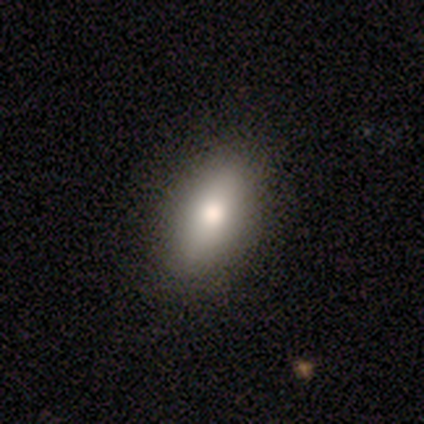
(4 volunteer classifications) Q: Smooth or featured?
A: smooth (100%)
Q: How rounded?
A: in between (75%); runner-up: cigar-shaped (25%)
Q: Merging?
A: none (50%); tied with: minor disturbance (50%)